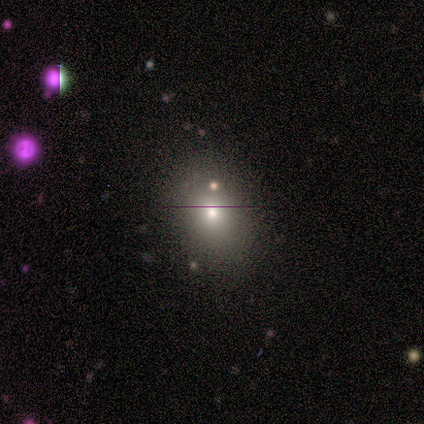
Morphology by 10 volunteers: This appears to be a smooth galaxy with no disk features (70%) that is in between round and cigar-shaped (71%). Merging: none (100%).